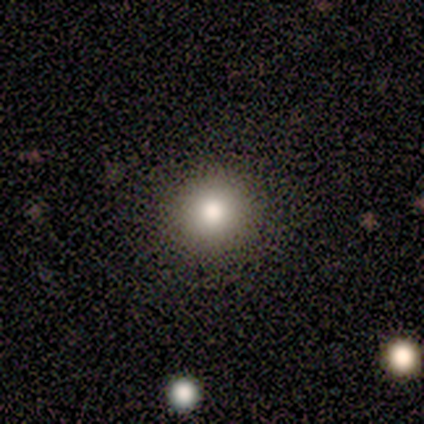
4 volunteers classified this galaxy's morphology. type=smooth (50%, tied with featured or disk); roundness=round (100%); merging=none (75%).